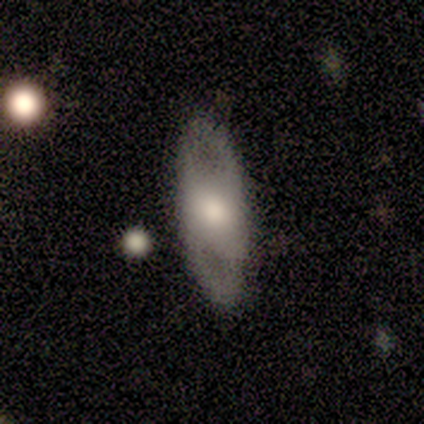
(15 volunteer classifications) A featured or disk galaxy (67%) with no bar (67%), no spiral arms (56%) and a moderate central bulge (67%). Merging: none (87%).